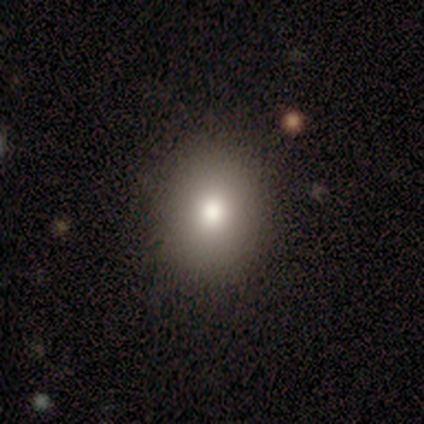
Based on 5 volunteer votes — Smooth or featured: smooth — 100%
How rounded: round — 60% (in between — 40%)
Merging: none — 100%